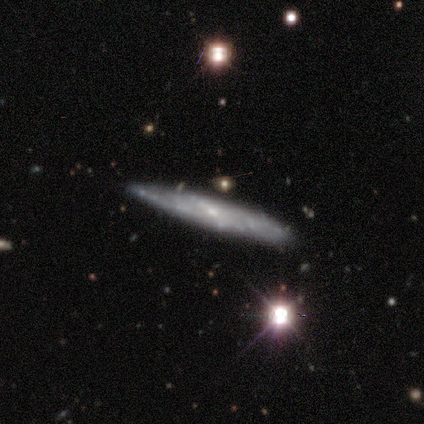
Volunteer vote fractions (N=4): Smooth or featured: featured or disk — 75% (smooth — 25%)
Edge-on disk: yes — 67% (no — 33%)
Edge-on bulge: rounded — 100%
Merging: none — 100%